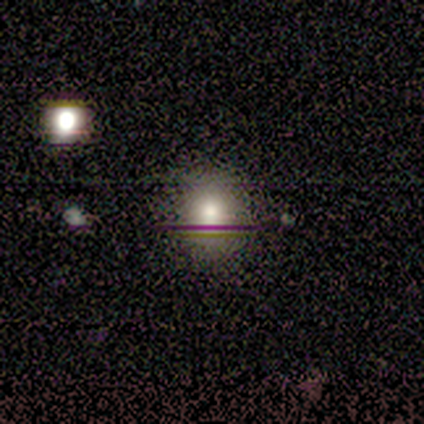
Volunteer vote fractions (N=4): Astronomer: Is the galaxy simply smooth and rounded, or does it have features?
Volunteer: smooth — 100%.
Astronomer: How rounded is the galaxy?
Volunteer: round — 100%.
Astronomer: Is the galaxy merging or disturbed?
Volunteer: none — 100%.